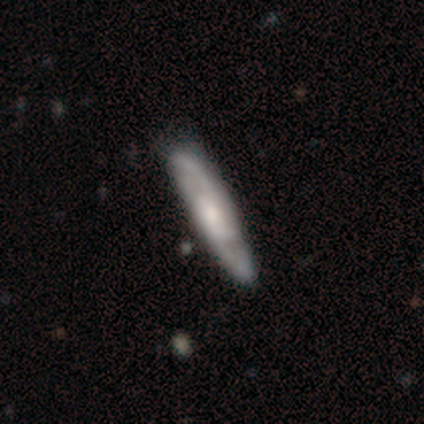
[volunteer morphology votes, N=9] smooth 56%, featured or disk 44%, star or artifact 0%. Down the decision tree: how rounded — cigar-shaped (80%); merging — none (78%).